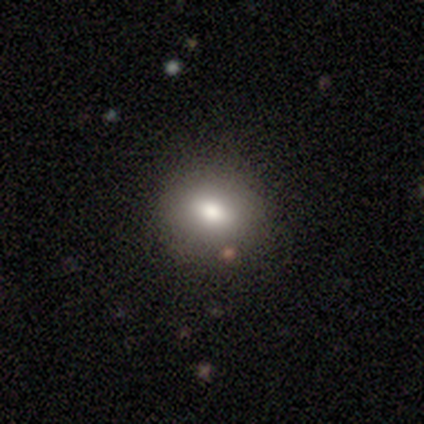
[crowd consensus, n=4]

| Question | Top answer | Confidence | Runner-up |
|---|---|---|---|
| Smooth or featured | smooth | 75% | featured or disk (25%) |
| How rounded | in between | 67% | round (33%) |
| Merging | none | 75% | minor disturbance (25%) |